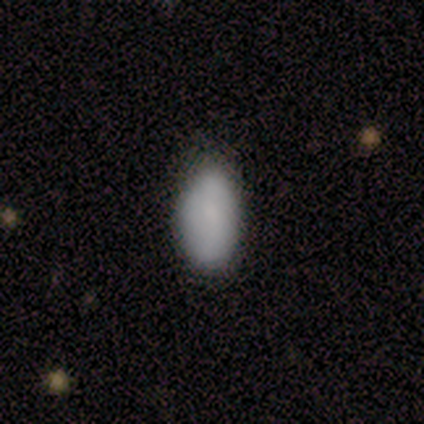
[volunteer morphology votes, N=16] Smooth or featured? smooth (75%)
How rounded? in between (92%)
Merging? none (47%, tied with minor disturbance)